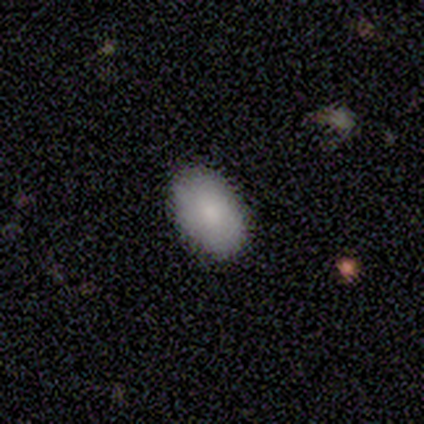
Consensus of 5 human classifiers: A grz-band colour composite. It shows a smooth galaxy with no disk features (80%) that is in between round and cigar-shaped (100%). Merging: none (100%).